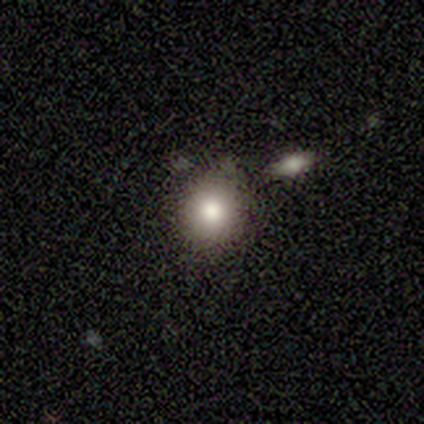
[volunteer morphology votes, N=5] Smooth or featured? 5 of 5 (100%) said smooth. How rounded? 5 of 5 (100%) said round. Merging? 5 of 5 (100%) said none.